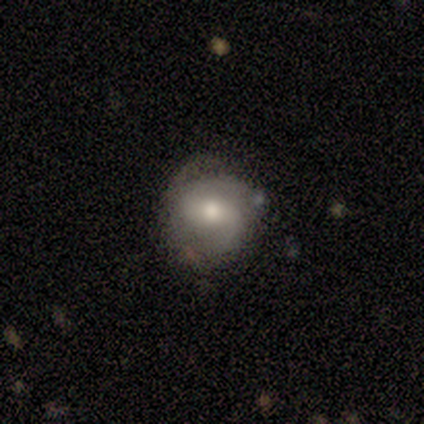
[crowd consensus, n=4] Smooth or featured? 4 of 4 (100%) said featured or disk. Edge-on disk? 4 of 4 (100%) said no. Bar? 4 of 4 (100%) said weak. Spiral arms? 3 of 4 (75%) said yes. Spiral winding? 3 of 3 (100%) said tight. Spiral arm count? 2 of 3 (67%) said 2. Bulge size? 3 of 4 (75%) said moderate. Merging? 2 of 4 (50%) said none.